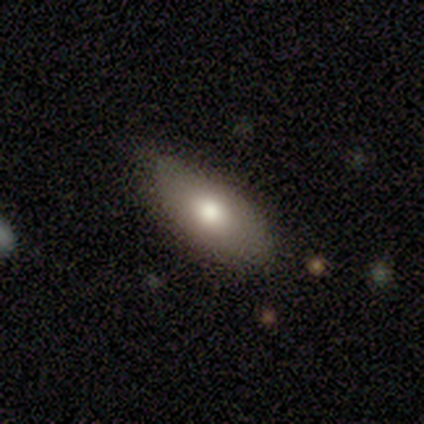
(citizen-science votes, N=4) smooth-or-featured: smooth: 50% (tied) | featured or disk: 50% (tied) | star or artifact: 0%
  how-rounded: in between: 100% | round: 0% | cigar-shaped: 0%
  merging: none: 50% (tied) | minor disturbance: 50% (tied) | major disturbance: 0% | merger: 0%